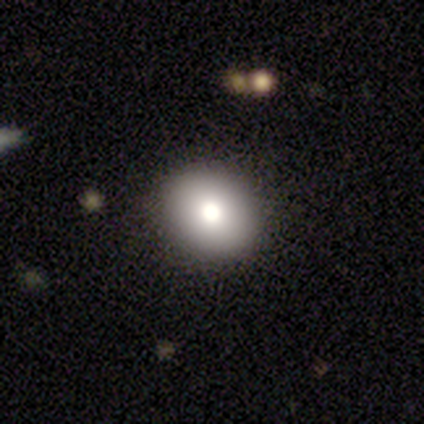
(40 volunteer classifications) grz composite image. It shows a smooth galaxy with no disk features (75%) that is round (77%). Merging: none (94%).